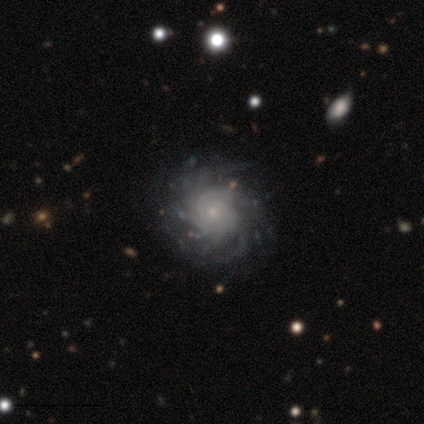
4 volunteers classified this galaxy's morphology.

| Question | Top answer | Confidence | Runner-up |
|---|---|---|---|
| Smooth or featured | featured or disk | 75% | star or artifact (25%) |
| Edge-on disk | no | 100% | — |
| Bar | no | 100% | — |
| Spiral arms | yes | 67% | no (33%) |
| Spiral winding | tight | 50% | tied: loose (50%) |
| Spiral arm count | more than 4 | 50% | tied: can't tell (50%) |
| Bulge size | small | 100% | — |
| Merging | none | 100% | — |